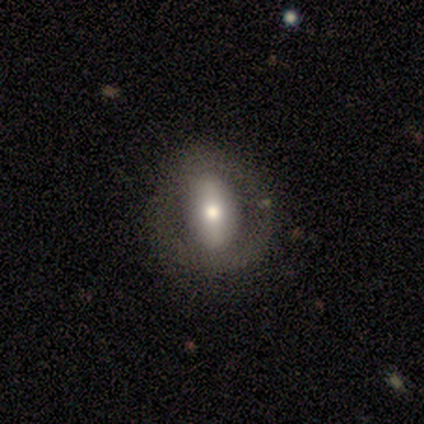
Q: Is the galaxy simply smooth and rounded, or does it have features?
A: featured or disk — 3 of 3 (100%).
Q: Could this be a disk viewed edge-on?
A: no — 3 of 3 (100%).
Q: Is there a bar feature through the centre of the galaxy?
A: strong — 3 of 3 (100%).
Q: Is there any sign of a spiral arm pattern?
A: no — 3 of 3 (100%).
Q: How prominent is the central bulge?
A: moderate — 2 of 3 (67%).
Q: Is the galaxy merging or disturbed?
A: none — 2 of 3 (67%).